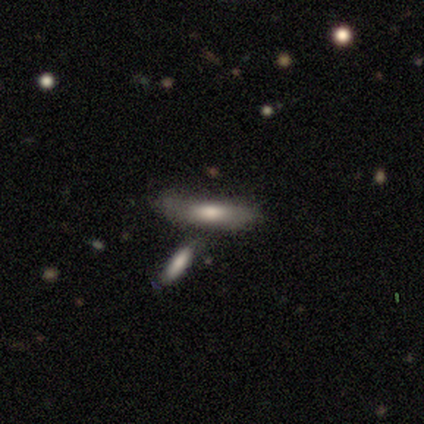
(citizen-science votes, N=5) A smooth galaxy with no disk features (60%) that is in between round and cigar-shaped (67%). Merging: none (75%).